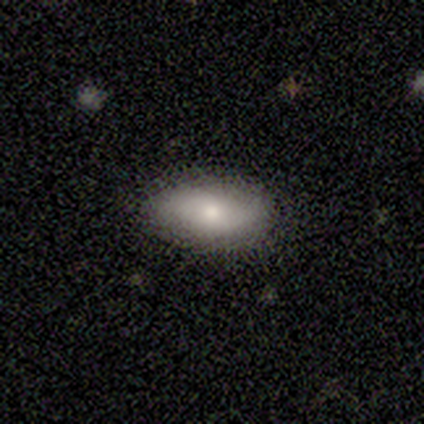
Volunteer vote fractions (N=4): Smooth or featured? 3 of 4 (75%) said featured or disk. Edge-on disk? 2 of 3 (67%) said yes. Edge-on bulge? 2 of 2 (100%) said rounded. Merging? 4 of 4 (100%) said none.